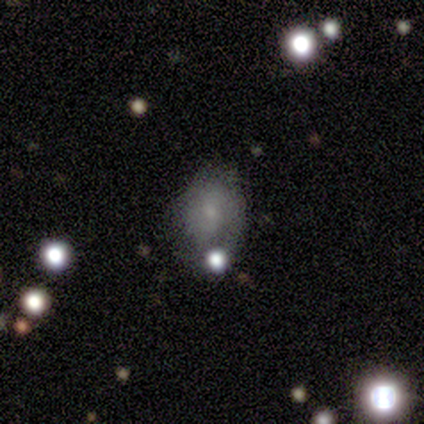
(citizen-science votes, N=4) This appears to be a smooth galaxy with no disk features (50%) that is round (50%, tied with in between). Merging: minor disturbance (67%).